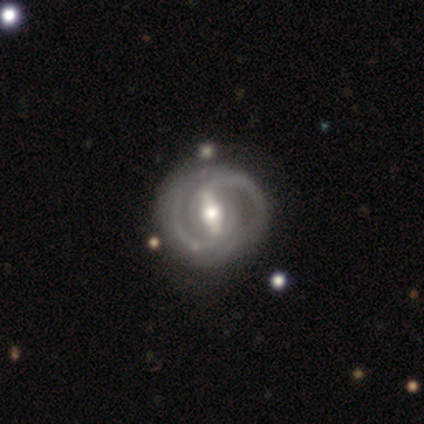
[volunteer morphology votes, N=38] featured or disk 89%, smooth 5%, star or artifact 5%. Down the decision tree: edge-on disk — no (97%); bar — strong (67%); spiral arms — yes (91%); spiral arm count — 2 (83%); spiral winding — medium (53%); bulge size — moderate (91%); merging — none (58%).